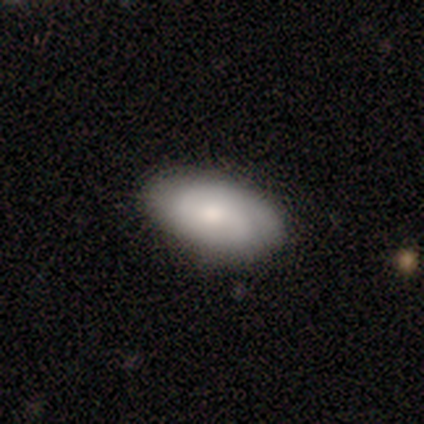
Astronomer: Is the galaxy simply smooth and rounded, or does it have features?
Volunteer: featured or disk — 60% (runner-up: smooth, 40%).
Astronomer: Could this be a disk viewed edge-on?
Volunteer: no — 100%.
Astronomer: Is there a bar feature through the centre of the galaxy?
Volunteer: no — 67%.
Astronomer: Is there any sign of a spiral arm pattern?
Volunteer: yes — 67%.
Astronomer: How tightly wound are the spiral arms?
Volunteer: tight — 50%, tied with medium at 50%.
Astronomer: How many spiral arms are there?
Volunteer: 2 — 100%.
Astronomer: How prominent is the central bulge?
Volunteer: moderate — 100%.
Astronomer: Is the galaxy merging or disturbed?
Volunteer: none — 100%.